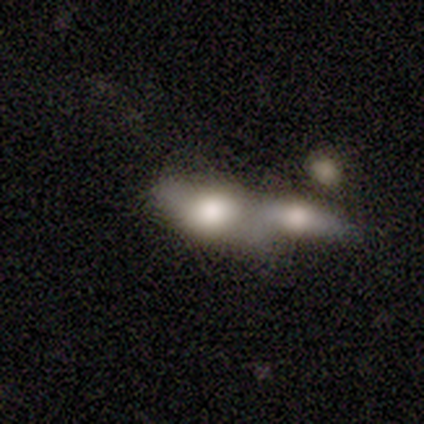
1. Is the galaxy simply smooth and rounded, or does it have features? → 71% smooth, 29% featured or disk, 0% star or artifact.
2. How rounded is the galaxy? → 100% in between, 0% round, 0% cigar-shaped.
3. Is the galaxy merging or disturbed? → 71% merger, 29% none, 0% minor disturbance, 0% major disturbance.